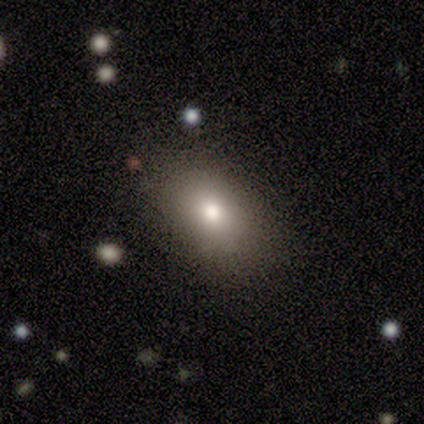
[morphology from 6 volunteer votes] smooth-or-featured: smooth: 83% | star or artifact: 17% | featured or disk: 0%
  how-rounded: in between: 80% | round: 20% | cigar-shaped: 0%
  merging: none: 60% | minor disturbance: 20% | major disturbance: 20% | merger: 0%